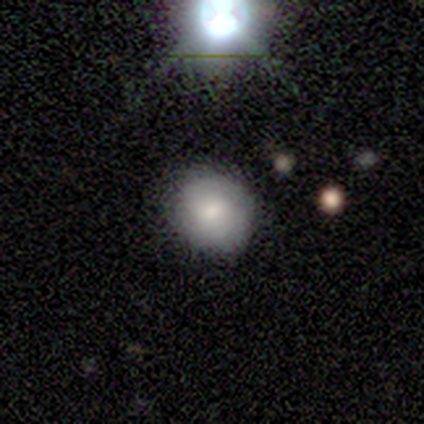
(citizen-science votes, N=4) Volunteers were most divided on "merging" (2-way tie): none: 50%, minor disturbance: 50%, major disturbance: 0%, merger: 0%. More confident: smooth or featured — smooth (100%); how rounded — round (100%).